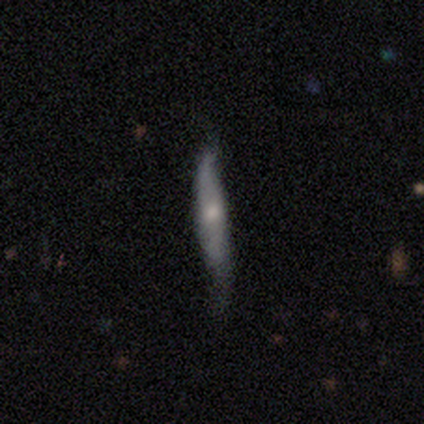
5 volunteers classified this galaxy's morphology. Q: Smooth or featured?
A: smooth (60%); runner-up: featured or disk (40%)
Q: How rounded?
A: cigar-shaped (100%)
Q: Merging?
A: none (60%); runner-up: minor disturbance (40%)